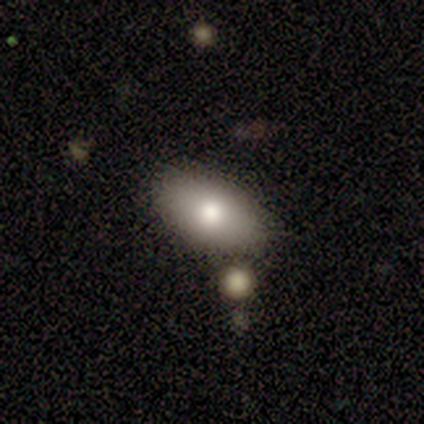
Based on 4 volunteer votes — Smooth or featured?
  - smooth: 75% *
  - featured or disk: 25%
  - star or artifact: 0%
How rounded?
  - in between: 100% *
  - round: 0%
  - cigar-shaped: 0%
Merging?
  - none: 100% *
  - minor disturbance: 0%
  - major disturbance: 0%
  - merger: 0%